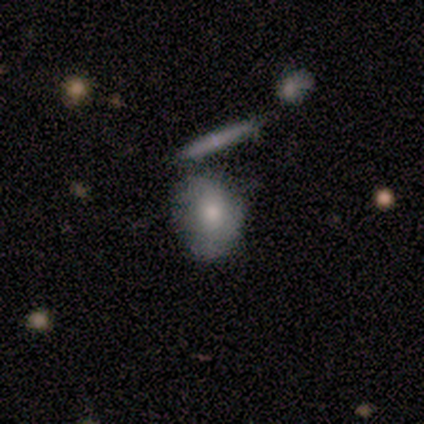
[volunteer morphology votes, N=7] Smooth or featured? smooth (57%)
How rounded? round (50%, tied with in between)
Merging? none (43%, tied with merger)